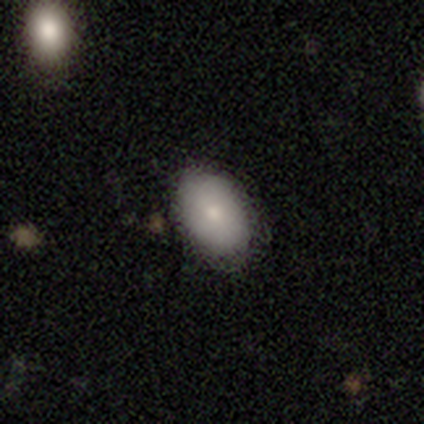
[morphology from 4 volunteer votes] smooth 75%, featured or disk 25%, star or artifact 0%. Down the decision tree: how rounded — in between (100%); merging — none (75%).